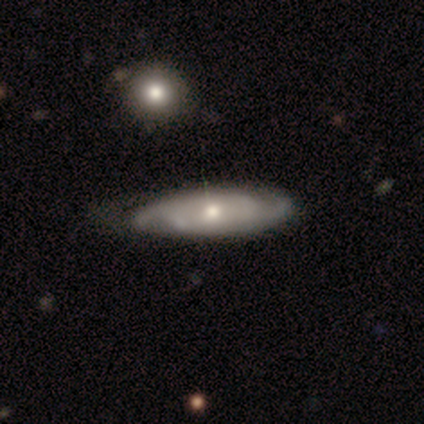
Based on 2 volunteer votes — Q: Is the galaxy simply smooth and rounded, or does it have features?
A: smooth — 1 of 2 (50%, tied with featured or disk).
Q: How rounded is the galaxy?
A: cigar-shaped — 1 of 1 (100%).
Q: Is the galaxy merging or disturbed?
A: none — 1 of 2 (50%, tied with minor disturbance).